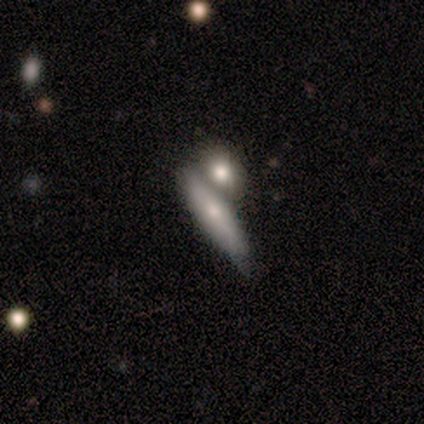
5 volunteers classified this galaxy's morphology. smooth-or-featured: featured or disk: 60% | smooth: 40% | star or artifact: 0%
  disk-edge-on: yes: 100% | no: 0%
    edge-on-bulge: boxy: 67% | rounded: 33% | none: 0%
  merging: none: 80% | merger: 20% | minor disturbance: 0% | major disturbance: 0%